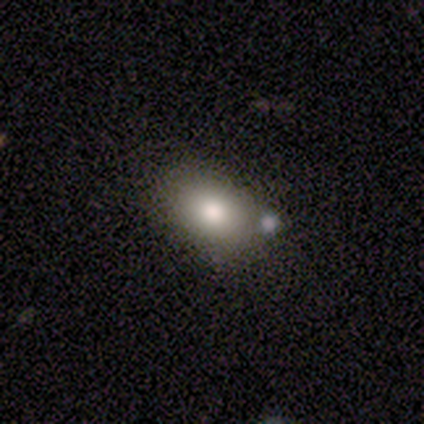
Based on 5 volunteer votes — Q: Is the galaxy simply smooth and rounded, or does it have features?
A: smooth — 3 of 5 (60%).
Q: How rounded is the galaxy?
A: in between — 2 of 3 (67%).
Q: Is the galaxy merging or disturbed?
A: none — 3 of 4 (75%).